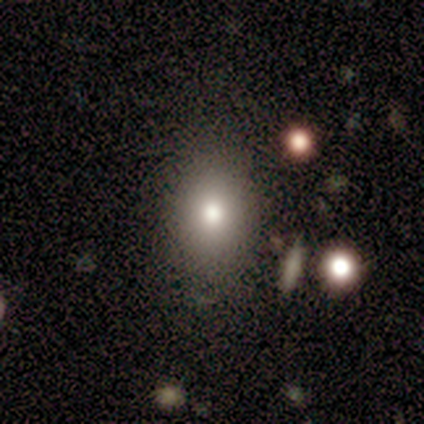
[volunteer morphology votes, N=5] smooth_or_featured: smooth (p=0.60) [alt: featured or disk p=0.20]
how_rounded: in between (p=0.67) [alt: cigar-shaped p=0.33]
merging: none (p=0.50) [tied with: minor disturbance p=0.50]